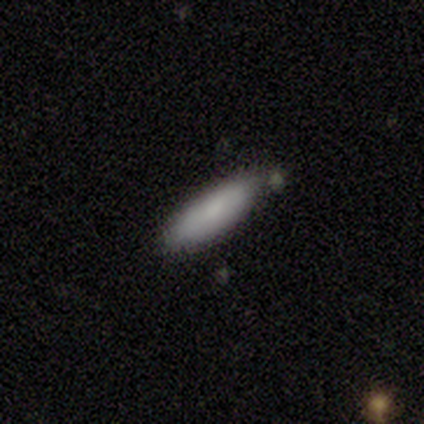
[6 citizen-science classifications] Smooth or featured?
  - smooth: 67% *
  - featured or disk: 17%
  - star or artifact: 17%
How rounded?
  - cigar-shaped: 75% *
  - in between: 25%
  - round: 0%
Merging?
  - none: 80% *
  - minor disturbance: 20%
  - major disturbance: 0%
  - merger: 0%